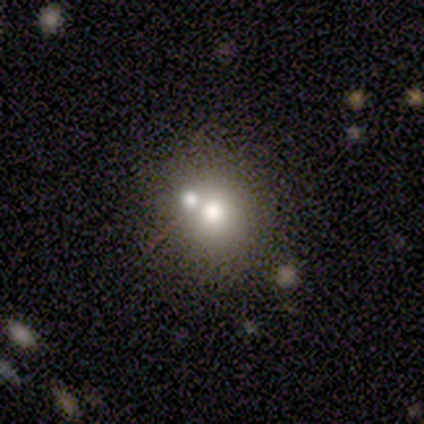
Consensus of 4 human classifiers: Smooth or featured: smooth — 50% (featured or disk — 25%)
How rounded: round — 100%
Merging: merger — 67% (none — 33%)